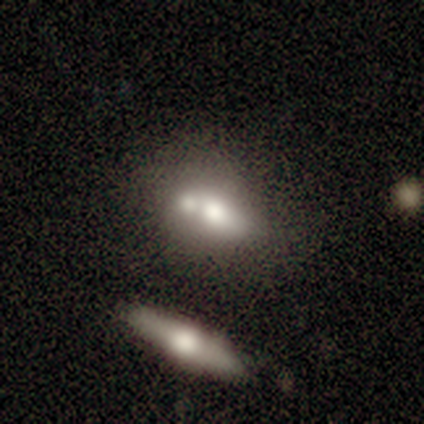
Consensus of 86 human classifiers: Morphology: type=smooth (49%, tied with featured or disk); roundness=in between (69%); merging=merger (54%).